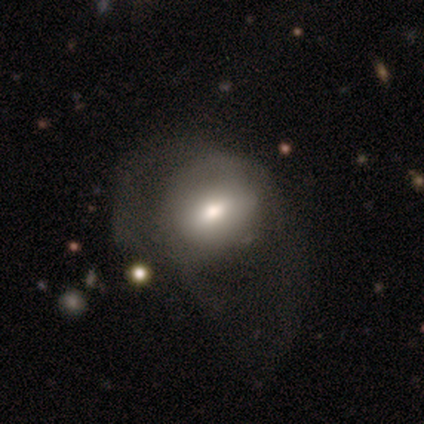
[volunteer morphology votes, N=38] Smooth or featured? 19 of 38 (50%) said smooth. How rounded? 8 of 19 (42%, tied with in between) said round. Merging? 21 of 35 (60%) said major disturbance.